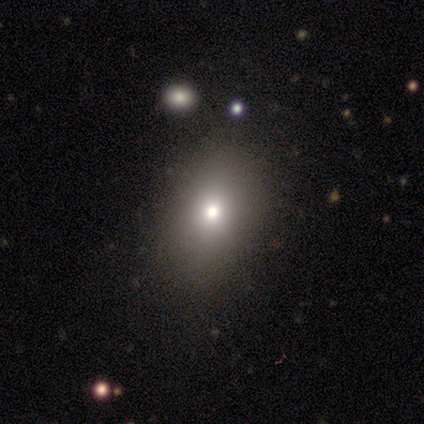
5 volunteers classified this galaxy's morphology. type=smooth (80%); roundness=in between (100%); merging=none (50%).